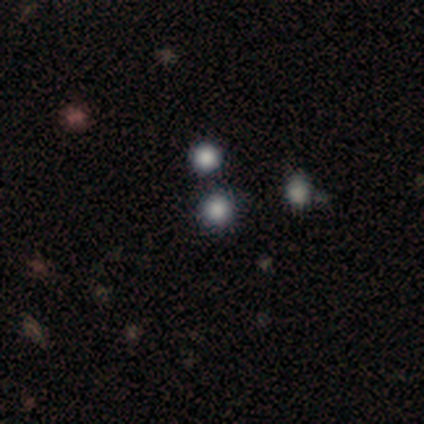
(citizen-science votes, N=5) This appears to be a smooth galaxy with no disk features (80%) that is round (75%). Merging: none (80%).